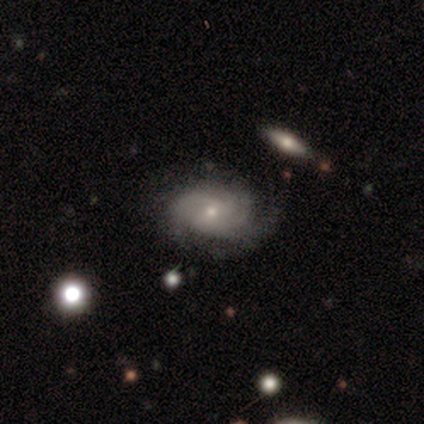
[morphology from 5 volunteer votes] A featured or disk galaxy (100%) with a weak bar (60%), 2 (40%) tight (80%) spiral arms (100%) and a moderate central bulge (80%). Merging: none (80%).